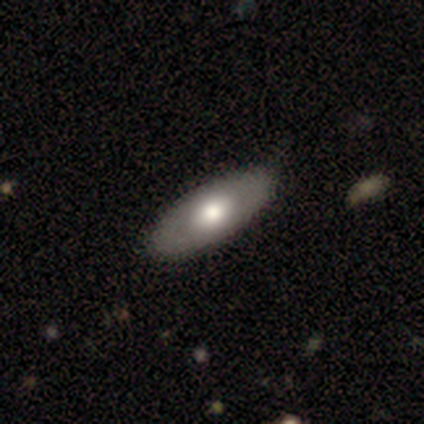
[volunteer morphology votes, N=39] Smooth or featured?
  - smooth: 59% *
  - featured or disk: 38%
  - star or artifact: 3%
How rounded?
  - in between: 91% *
  - cigar-shaped: 9%
  - round: 0%
Merging?
  - none: 42% *
  - minor disturbance: 8%
  - merger: 5%
  - major disturbance: 0%